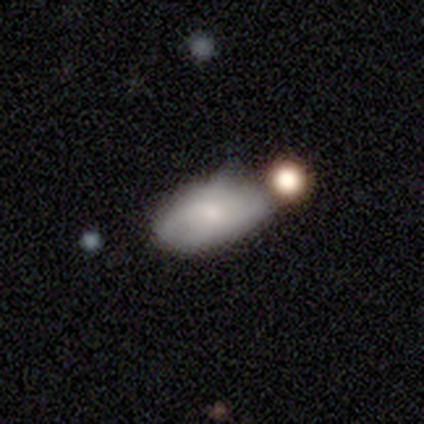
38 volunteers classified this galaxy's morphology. Overall: smooth (61%; featured or disk 34%). How rounded: in between (87%). Merging: none (47%; minor disturbance 22%).